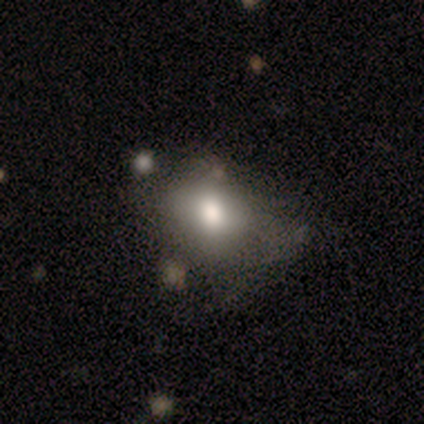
This is likely a smooth galaxy (60%). How rounded: likely in between (67%). Merging: possibly minor disturbance (50%).